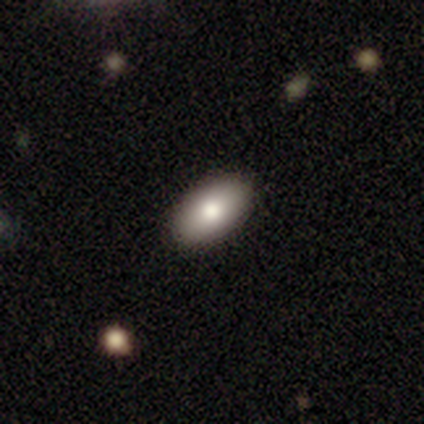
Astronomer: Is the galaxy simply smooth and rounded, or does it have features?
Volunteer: smooth — 100%.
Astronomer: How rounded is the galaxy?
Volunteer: in between — 67%.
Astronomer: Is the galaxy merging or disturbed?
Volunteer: none — 100%.